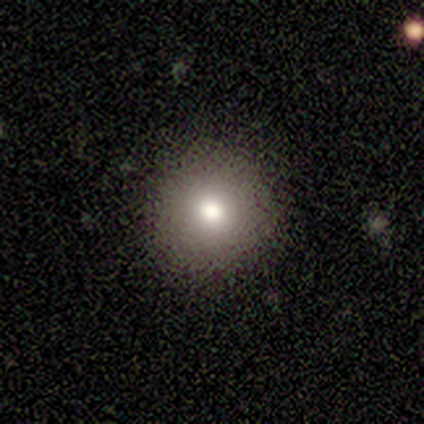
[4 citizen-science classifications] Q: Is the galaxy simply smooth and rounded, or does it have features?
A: smooth — 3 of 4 (75%).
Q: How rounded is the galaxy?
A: round — 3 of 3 (100%).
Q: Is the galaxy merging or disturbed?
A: none — 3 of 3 (100%).